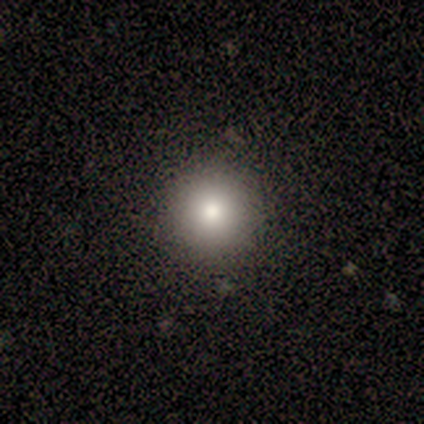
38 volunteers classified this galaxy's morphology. Q: Smooth or featured?
A: smooth (71%); runner-up: featured or disk (16%)
Q: How rounded?
A: round (93%); runner-up: in between (7%)
Q: Merging?
A: none (97%); runner-up: minor disturbance (3%)